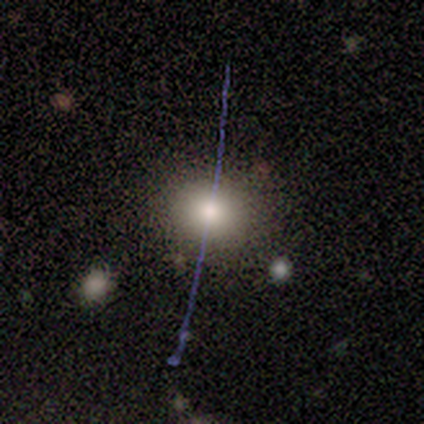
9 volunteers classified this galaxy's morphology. This is likely a smooth galaxy (78%). How rounded: likely round (71%). Merging: likely none (75%).